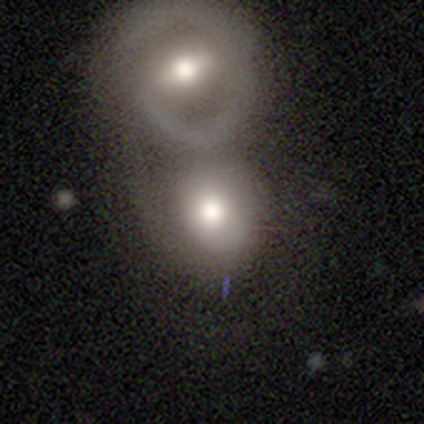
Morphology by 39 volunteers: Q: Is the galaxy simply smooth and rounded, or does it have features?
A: smooth — 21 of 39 (54%).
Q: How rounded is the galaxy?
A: in between — 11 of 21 (52%).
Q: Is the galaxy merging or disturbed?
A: merger — 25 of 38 (66%).